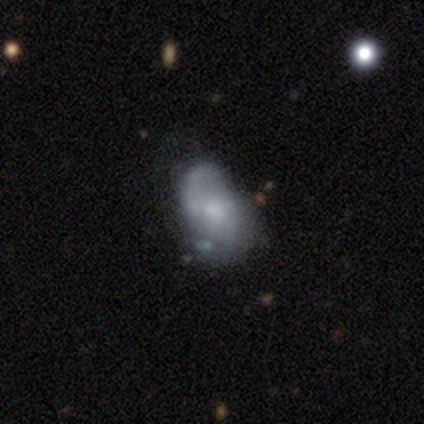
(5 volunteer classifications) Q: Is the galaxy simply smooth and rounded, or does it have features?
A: smooth — 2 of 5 (40%, tied with featured or disk).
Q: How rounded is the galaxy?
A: in between — 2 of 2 (100%).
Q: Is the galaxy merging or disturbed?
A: none — 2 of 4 (50%, tied with minor disturbance).